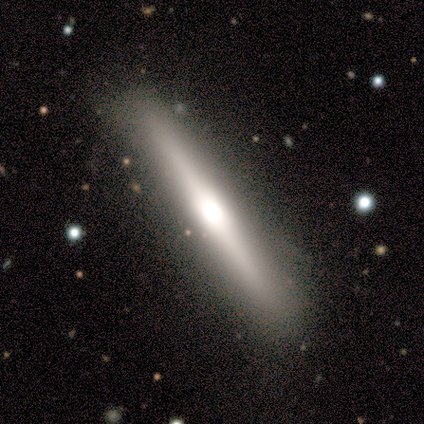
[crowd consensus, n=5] Smooth or featured: featured or disk — 100%
Edge-on disk: yes — 100%
Edge-on bulge: rounded — 60% (boxy — 40%)
Merging: none — 100%